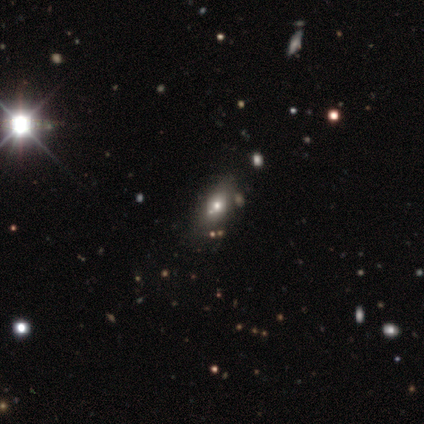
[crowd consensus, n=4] Overall: smooth (100%). How rounded: in between (75%). Merging: none (75%).